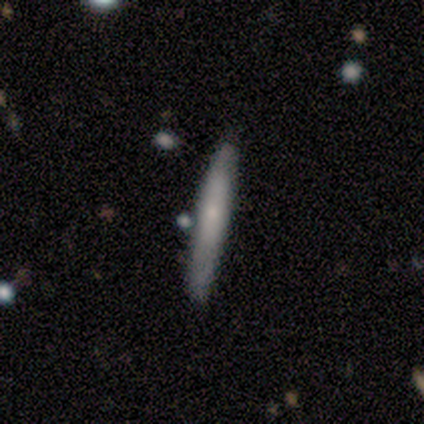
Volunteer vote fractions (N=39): Smooth or featured?
  - smooth: 64% *
  - featured or disk: 36%
  - star or artifact: 0%
How rounded?
  - cigar-shaped: 96% *
  - in between: 4%
  - round: 0%
Merging?
  - none: 87% *
  - minor disturbance: 8%
  - merger: 5%
  - major disturbance: 0%